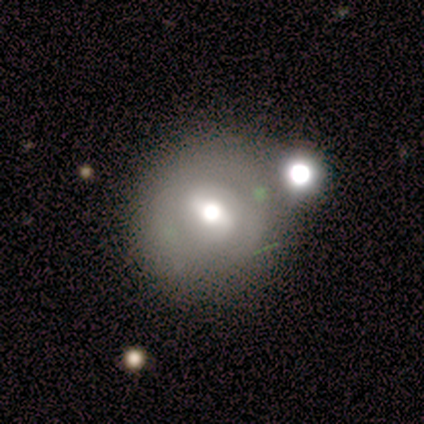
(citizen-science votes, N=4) smooth 75%, featured or disk 25%, star or artifact 0%. Down the decision tree: how rounded — round (100%); merging — none (50%, tied with merger).